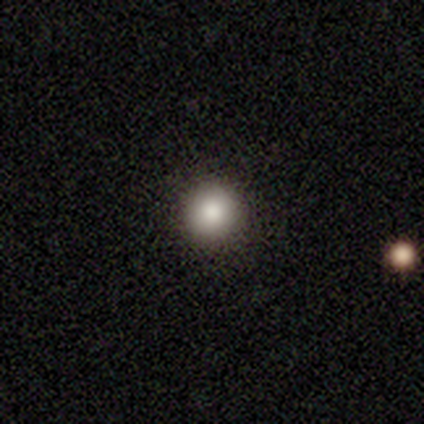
smooth 100%, featured or disk 0%, star or artifact 0%. Down the decision tree: how rounded — round (100%); merging — none (80%).